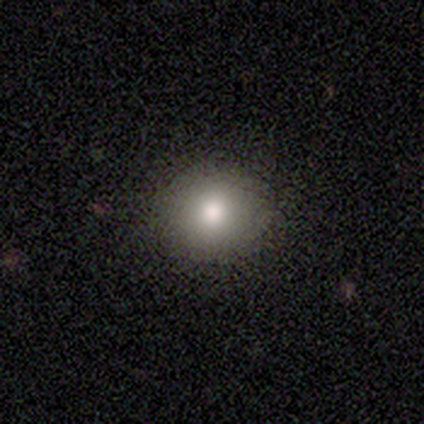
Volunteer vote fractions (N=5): Smooth or featured? 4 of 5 (80%) said smooth. How rounded? 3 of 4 (75%) said round. Merging? 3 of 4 (75%) said none.